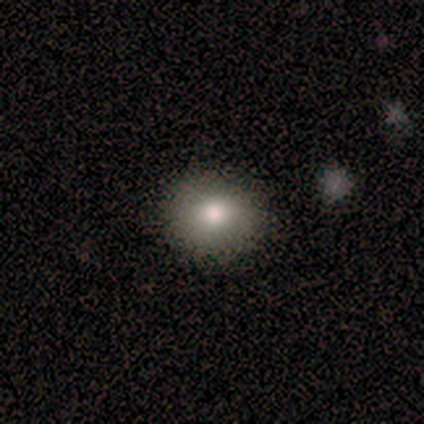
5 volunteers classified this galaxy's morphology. This is clearly a smooth galaxy (100%). How rounded: clearly round (100%). Merging: clearly none (100%).